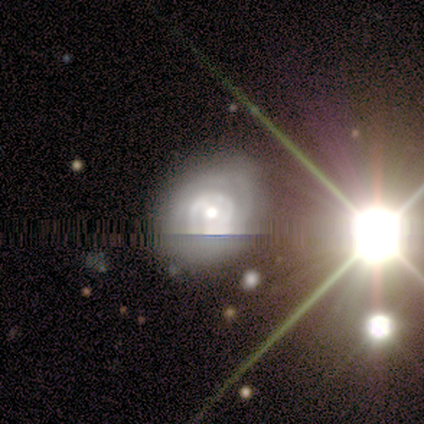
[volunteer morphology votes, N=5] Smooth or featured? 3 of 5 (60%) said featured or disk. Edge-on disk? 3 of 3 (100%) said no. Bar? 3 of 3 (100%) said no. Spiral arms? 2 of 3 (67%) said yes. Spiral winding? 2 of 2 (100%) said tight. Spiral arm count? 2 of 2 (100%) said can't tell. Bulge size? 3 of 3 (100%) said moderate. Merging? 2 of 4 (50%, tied with minor disturbance) said none.